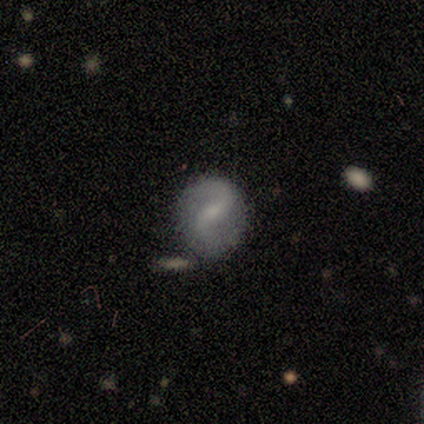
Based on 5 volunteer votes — This appears to be a featured or disk galaxy (80%) with a weak bar (75%), 2 (100%) medium (67%) spiral arms (75%) and a small central bulge (100%). Merging: none (100%).